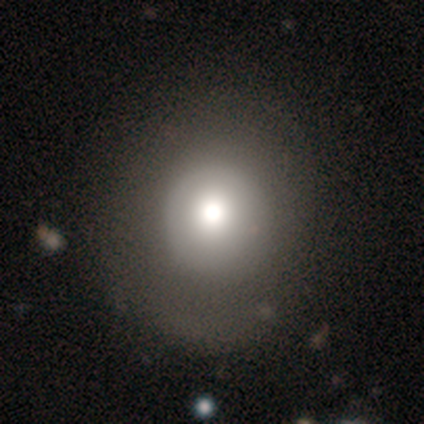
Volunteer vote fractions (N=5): This appears to be a smooth galaxy with no disk features (60%) that is round (100%). Merging: none (60%).